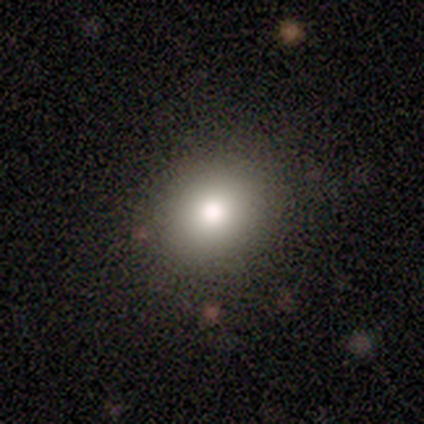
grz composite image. It shows a smooth galaxy with no disk features (60%) that is round (100%). Merging: none (75%).